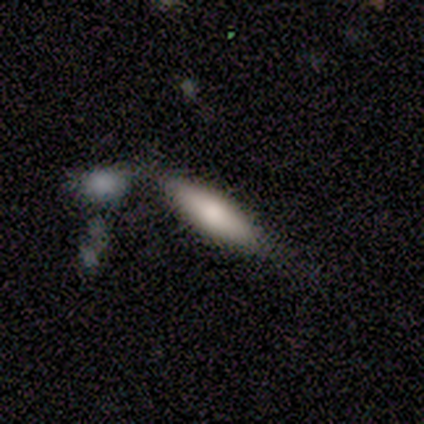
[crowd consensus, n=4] smooth 100%, featured or disk 0%, star or artifact 0%. Down the decision tree: how rounded — in between (50%, tied with cigar-shaped); merging — minor disturbance (50%).